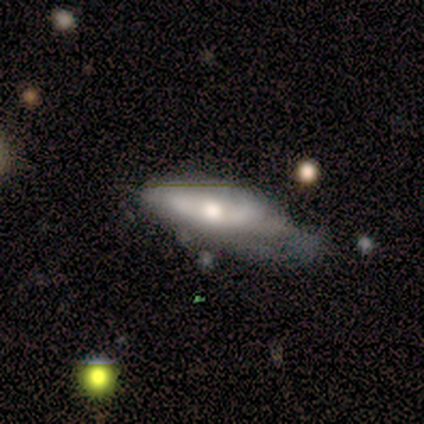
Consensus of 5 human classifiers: This is likely a featured or disk galaxy (60%). It is likely not viewed edge-on (67%). Bar: clearly no (100%). Spiral arm pattern: clearly no (100%). Central bulge: clearly small (100%). Merging: likely minor disturbance (60%).